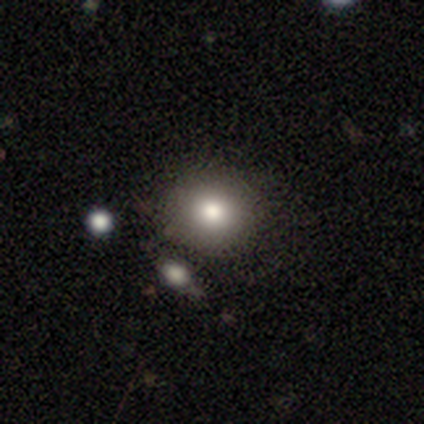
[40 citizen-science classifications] Morphology: type=smooth (75%); roundness=round (83%); merging=none (86%).